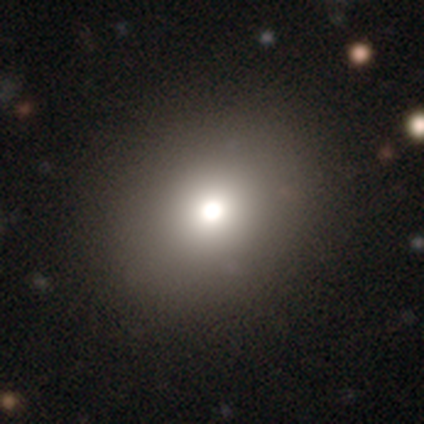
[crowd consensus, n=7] This appears to be a smooth galaxy with no disk features (86%) that is in between round and cigar-shaped (83%). Merging: none (100%).